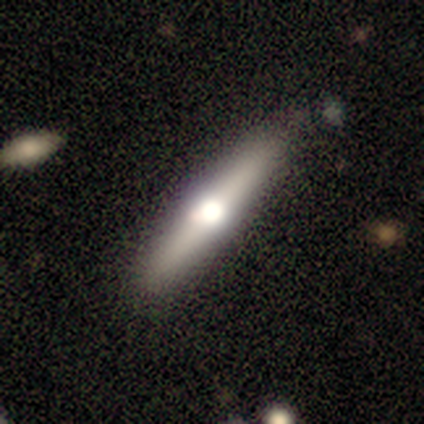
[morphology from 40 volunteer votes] Smooth or featured? smooth (50%, tied with featured or disk)
How rounded? cigar-shaped (90%)
Merging? none (65%)